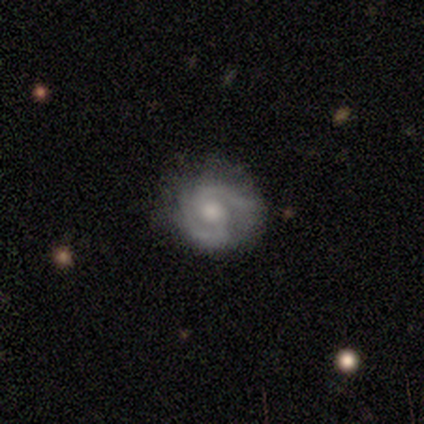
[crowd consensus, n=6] Smooth or featured: featured or disk — 100%
Edge-on disk: no — 100%
Bar: weak — 50% (no — 33%)
Spiral arms: yes — 100%
Spiral winding: medium — 67% (tight — 17%)
Spiral arm count: 2 — 100%
Bulge size: moderate — 100%
Merging: none — 67% (minor disturbance — 33%)